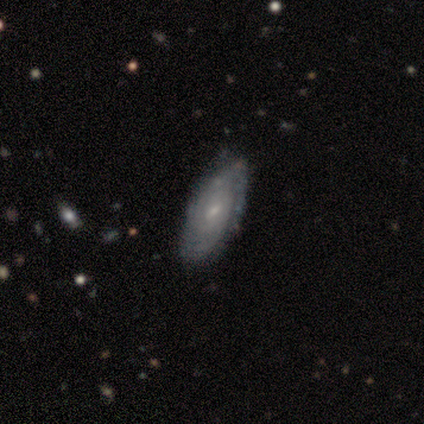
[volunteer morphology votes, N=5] A featured or disk galaxy (60%) viewed edge-on (67%) with a rounded central bulge (100%).

Vote fractions:
- Smooth or featured? featured or disk: 60% / smooth: 20% / star or artifact: 20%
- Edge-on disk? yes: 67% / no: 33%
- Edge-on bulge? rounded: 100% / boxy: 0% / none: 0%
- Merging? none: 75% / minor disturbance: 25% / major disturbance: 0% / merger: 0%